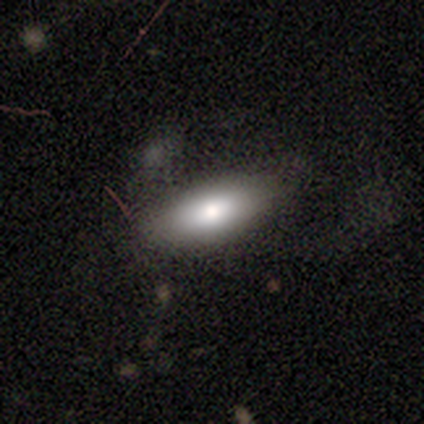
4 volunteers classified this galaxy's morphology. This is clearly a smooth galaxy (100%). How rounded: clearly in between (100%). Merging: clearly none (100%).